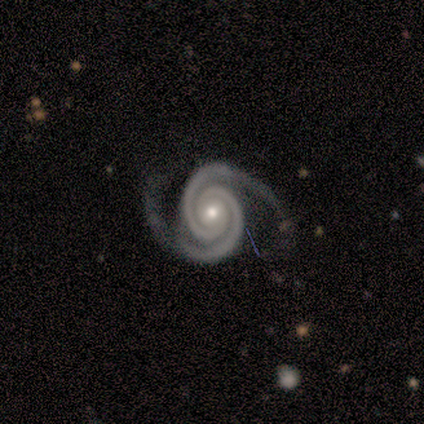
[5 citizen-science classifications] Q: Smooth or featured?
A: featured or disk (100%)
Q: Edge-on disk?
A: no (80%); runner-up: yes (20%)
Q: Bar?
A: no (75%); runner-up: weak (25%)
Q: Spiral arms?
A: yes (100%)
Q: Spiral winding?
A: tight (75%); runner-up: medium (25%)
Q: Spiral arm count?
A: 2 (100%)
Q: Bulge size?
A: moderate (75%); runner-up: small (25%)
Q: Merging?
A: none (80%); runner-up: major disturbance (20%)